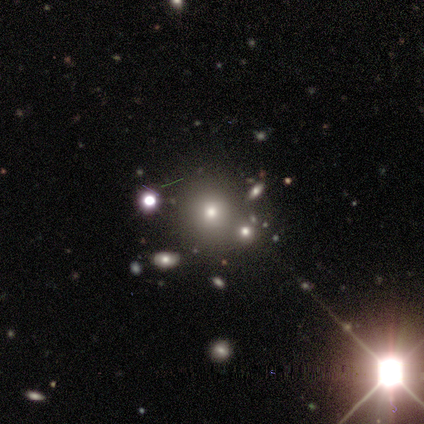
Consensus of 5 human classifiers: smooth_or_featured: smooth (p=0.60) [alt: star or artifact p=0.40]
how_rounded: round (p=1.00)
merging: none (p=0.67) [alt: merger p=0.33]